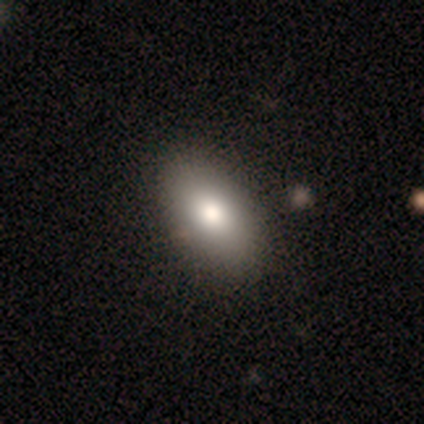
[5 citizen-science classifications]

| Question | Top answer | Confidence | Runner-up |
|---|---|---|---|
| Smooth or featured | featured or disk | 60% | smooth (40%) |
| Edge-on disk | no | 100% | — |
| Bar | no | 100% | — |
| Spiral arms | no | 100% | — |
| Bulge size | moderate | 100% | — |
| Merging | none | 100% | — |